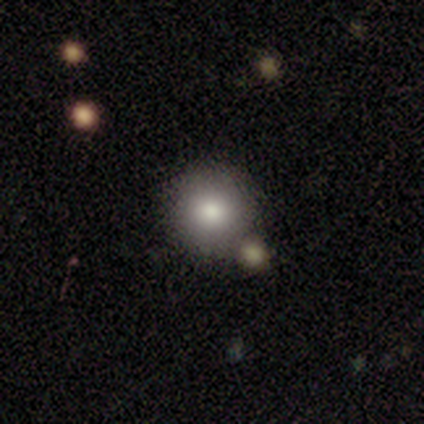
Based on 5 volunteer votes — This is clearly a smooth galaxy (100%). How rounded: clearly round (100%). Merging: clearly none (80%).